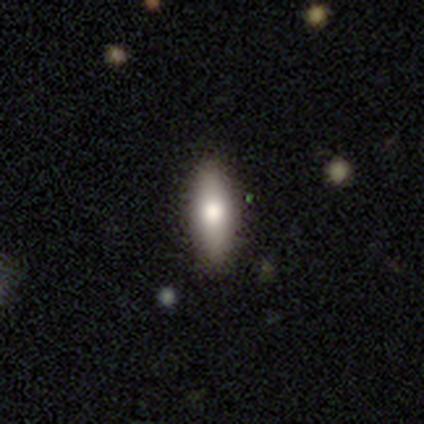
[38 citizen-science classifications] Morphology: type=smooth (55%); roundness=in between (57%); merging=none (86%).